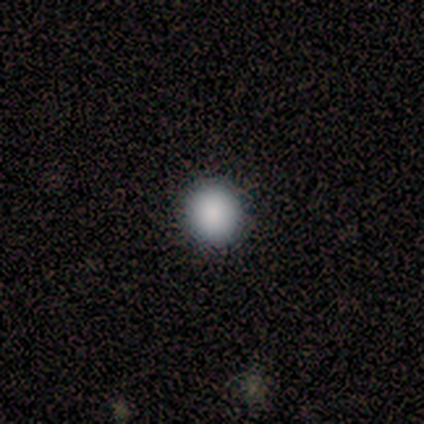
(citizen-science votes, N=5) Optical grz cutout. It shows a smooth galaxy with no disk features (80%) that is round (100%). Merging: none (100%).